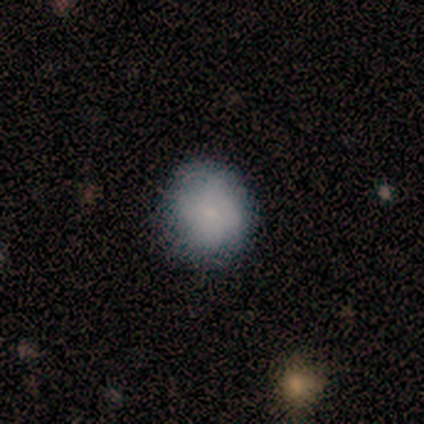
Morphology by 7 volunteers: This appears to be a smooth galaxy with no disk features (100%) that is round (100%). Merging: none (57%).